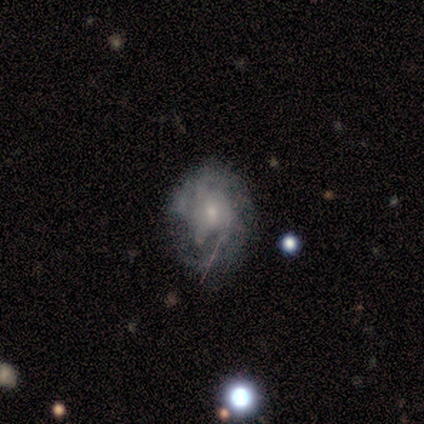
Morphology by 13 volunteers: A featured or disk galaxy (54%) with no bar (86%), medium (50%, tied with loose) spiral arms (57%) and a small central bulge (57%). Merging: none (36%, tied with major disturbance).